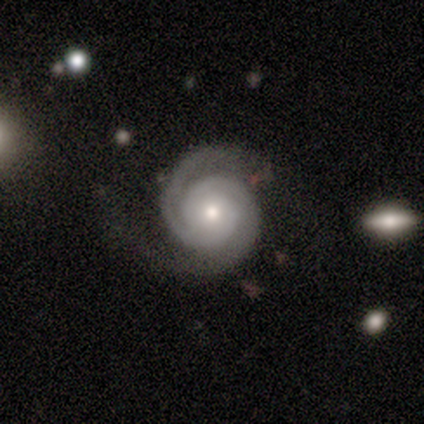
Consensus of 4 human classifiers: A featured or disk galaxy (100%) with no bar (75%), 2 (100%) tight (100%) spiral arms (100%) and a moderate central bulge (75%). Merging: none (50%, tied with minor disturbance).